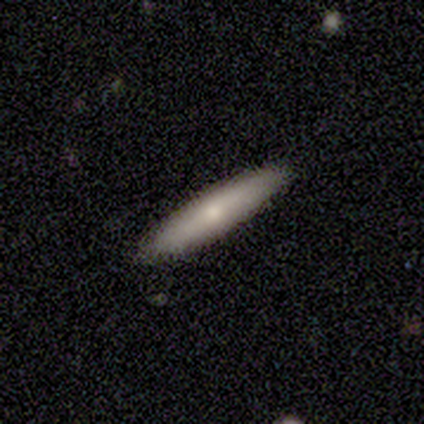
smooth 67%, featured or disk 33%, star or artifact 0%. Down the decision tree: how rounded — cigar-shaped (92%); merging — none (95%).